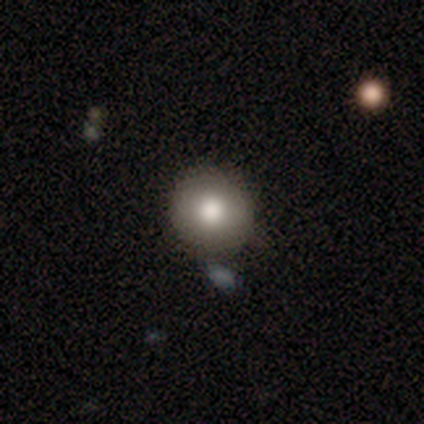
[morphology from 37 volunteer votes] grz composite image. It shows a smooth galaxy with no disk features (86%) that is round (97%). Merging: none (78%).